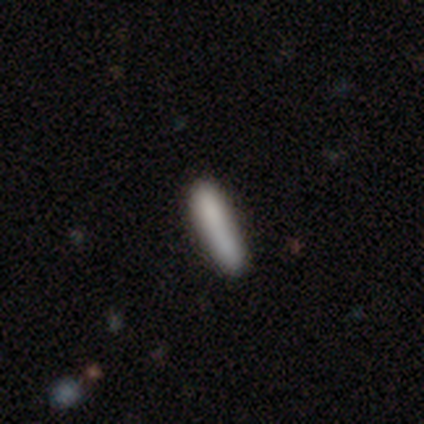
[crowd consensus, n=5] A smooth galaxy with no disk features (80%) that is cigar-shaped (75%).

Vote fractions:
- Smooth or featured? smooth: 80% / star or artifact: 20% / featured or disk: 0%
- How rounded? cigar-shaped: 75% / in between: 25% / round: 0%
- Merging? none: 100% / minor disturbance: 0% / major disturbance: 0% / merger: 0%